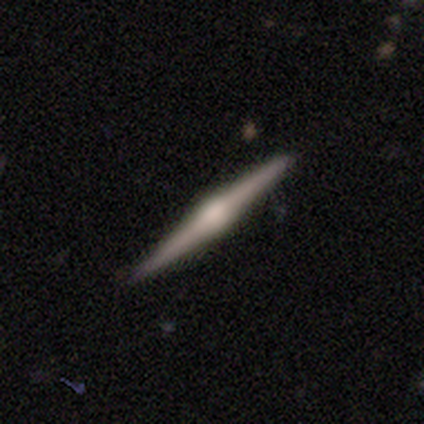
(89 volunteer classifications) Smooth or featured? 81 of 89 (91%) said featured or disk. Edge-on disk? 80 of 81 (99%) said yes. Edge-on bulge? 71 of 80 (89%) said rounded. Merging? 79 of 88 (90%) said none.